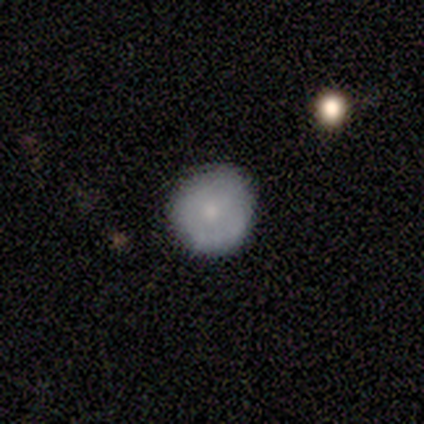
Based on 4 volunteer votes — Smooth or featured? smooth (75%)
How rounded? round (100%)
Merging? none (100%)